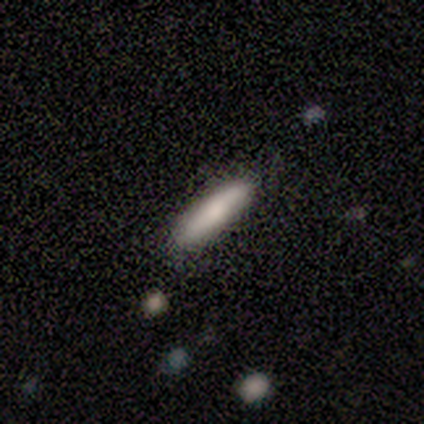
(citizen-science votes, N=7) smooth-or-featured: smooth: 71% | featured or disk: 29% | star or artifact: 0%
  how-rounded: cigar-shaped: 60% | in between: 40% | round: 0%
  merging: none: 86% | minor disturbance: 14% | major disturbance: 0% | merger: 0%